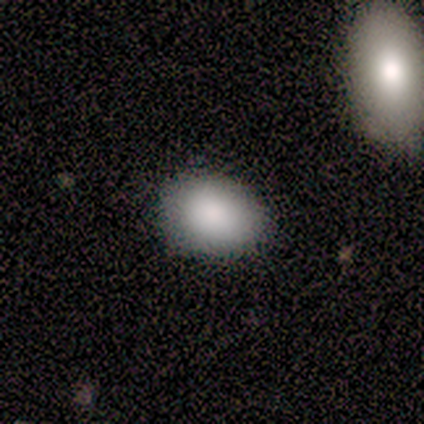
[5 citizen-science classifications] Smooth or featured?
  - smooth: 100% *
  - featured or disk: 0%
  - star or artifact: 0%
How rounded?
  - in between: 100% *
  - round: 0%
  - cigar-shaped: 0%
Merging?
  - none: 80% *
  - minor disturbance: 20%
  - major disturbance: 0%
  - merger: 0%